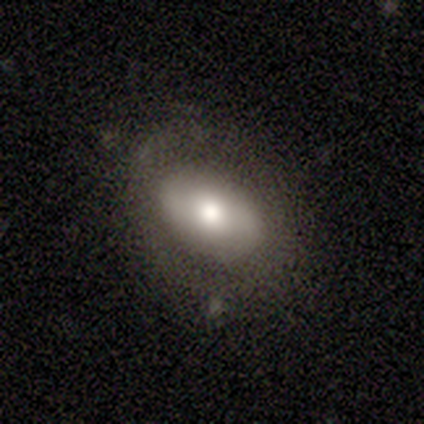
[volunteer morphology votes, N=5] Q: Smooth or featured?
A: smooth (80%); runner-up: featured or disk (20%)
Q: How rounded?
A: in between (100%)
Q: Merging?
A: none (80%); runner-up: minor disturbance (20%)